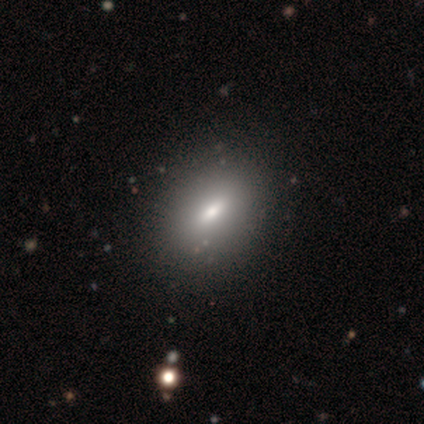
Volunteers were most divided on "smooth or featured": smooth: 72%, featured or disk: 23%, star or artifact: 5%. More confident: how rounded — in between (75%); merging — none (73%).